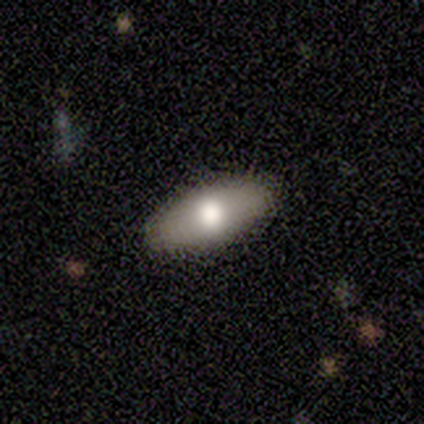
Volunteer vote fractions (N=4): smooth-or-featured: smooth: 50% (tied) | featured or disk: 50% (tied) | star or artifact: 0%
  how-rounded: in between: 100% | round: 0% | cigar-shaped: 0%
  merging: none: 100% | minor disturbance: 0% | major disturbance: 0% | merger: 0%